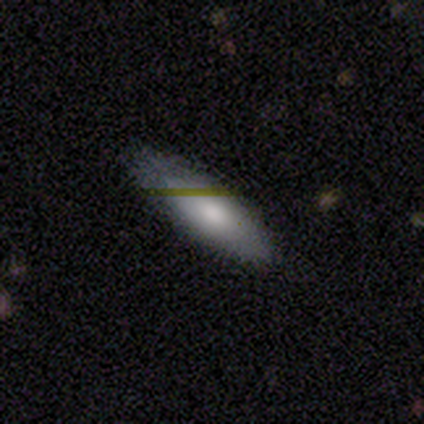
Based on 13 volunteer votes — Smooth or featured? smooth (85%)
How rounded? cigar-shaped (55%)
Merging? none (85%)